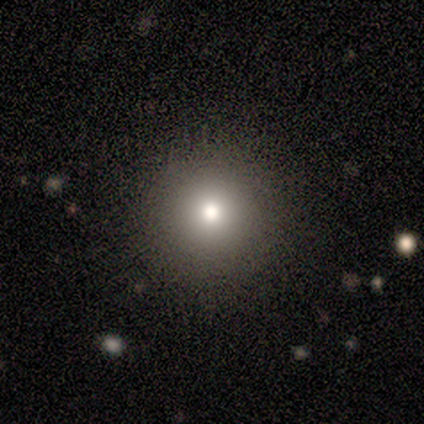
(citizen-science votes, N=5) Smooth or featured? 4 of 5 (80%) said smooth. How rounded? 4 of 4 (100%) said round. Merging? 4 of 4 (100%) said none.